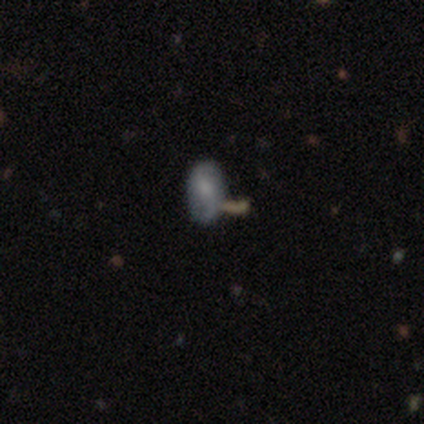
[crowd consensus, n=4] featured or disk 75%, smooth 25%, star or artifact 0%. Down the decision tree: edge-on disk — no (100%); bar — no (67%); spiral arms — yes (67%); spiral arm count — 2 (100%); spiral winding — loose (100%); bulge size — small (100%); merging — none (50%, tied with merger).